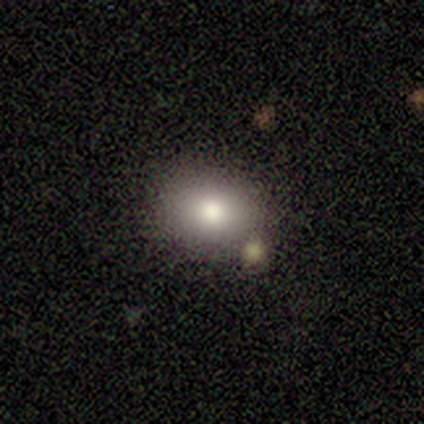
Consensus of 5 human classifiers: smooth_or_featured: smooth (p=0.80) [alt: featured or disk p=0.20]
how_rounded: in between (p=0.75) [alt: round p=0.25]
merging: none (p=0.60) [alt: minor disturbance p=0.20]